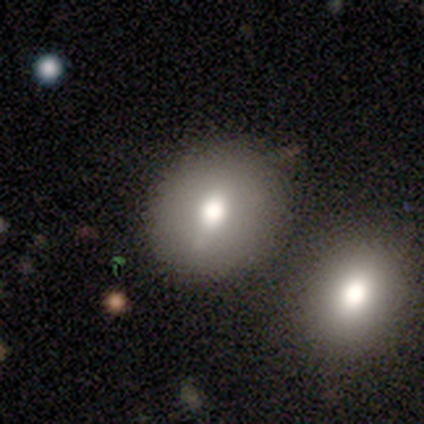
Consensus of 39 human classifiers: This is likely a smooth galaxy (74%). How rounded: likely round (69%). Merging: likely none (64%).